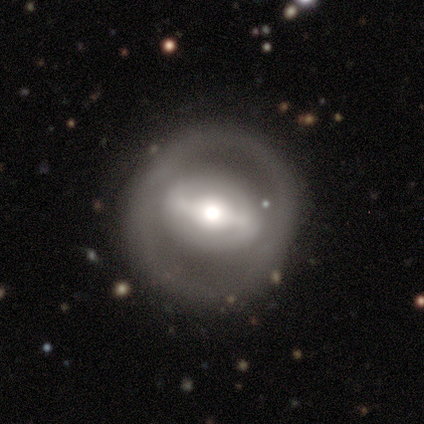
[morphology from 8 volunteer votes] Smooth or featured: featured or disk — 62% (smooth — 25%)
Edge-on disk: no — 100%
Bar: no — 60% (strong — 20%)
Spiral arms: no — 80% (yes — 20%)
Bulge size: moderate — 60% (large — 20%)
Merging: none — 100%